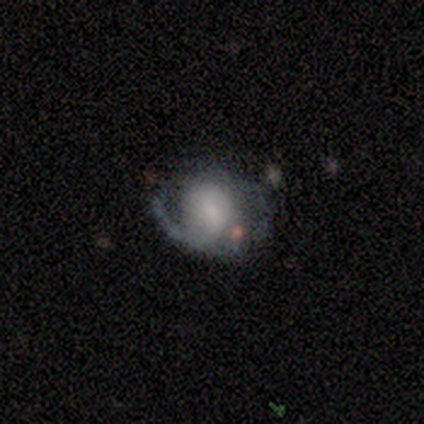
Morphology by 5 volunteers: A featured or disk galaxy (80%) with a weak bar (50%), 2 (67%) tight (33%, tied with medium and loose) spiral arms (75%) and a small central bulge (50%). Merging: none (40%, tied with minor disturbance).